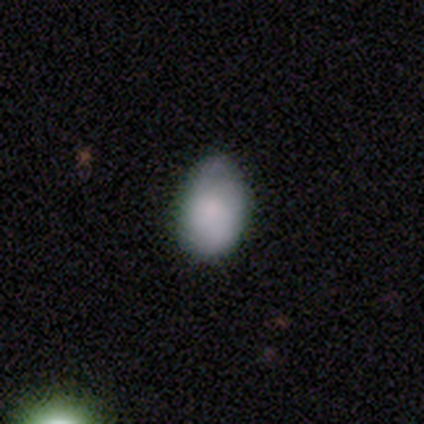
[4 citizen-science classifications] Smooth or featured?
  - smooth: 75% *
  - featured or disk: 25%
  - star or artifact: 0%
How rounded?
  - in between: 100% *
  - round: 0%
  - cigar-shaped: 0%
Merging?
  - minor disturbance: 75% *
  - none: 25%
  - major disturbance: 0%
  - merger: 0%